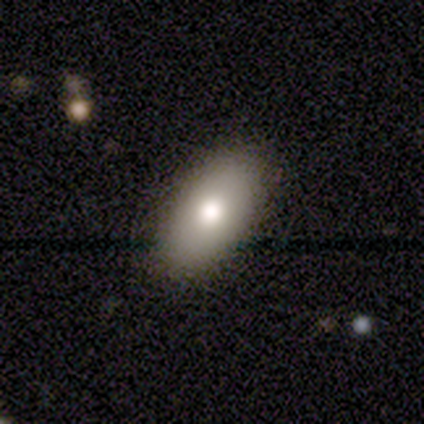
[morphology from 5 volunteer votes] Smooth or featured: featured or disk — 60% (smooth — 40%)
Edge-on disk: yes — 67% (no — 33%)
Edge-on bulge: rounded — 100%
Merging: none — 60% (minor disturbance — 40%)